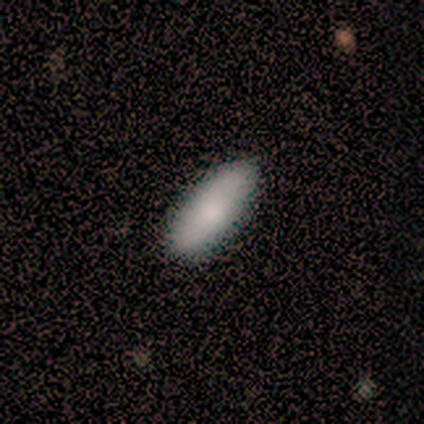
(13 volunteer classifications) A smooth galaxy with no disk features (85%) that is in between round and cigar-shaped (91%).

Vote fractions:
- Smooth or featured? smooth: 85% / featured or disk: 15% / star or artifact: 0%
- How rounded? in between: 91% / cigar-shaped: 9% / round: 0%
- Merging? none: 62% / minor disturbance: 31% / major disturbance: 8% / merger: 0%